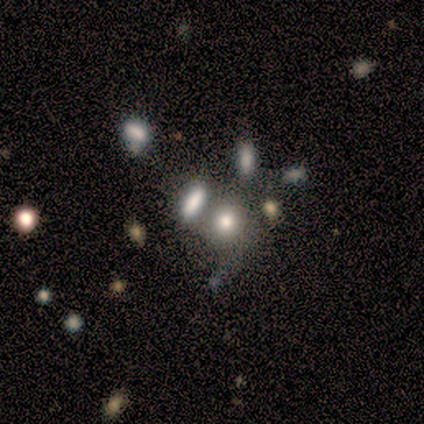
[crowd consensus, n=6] Overall: featured or disk (67%; star or artifact 33%). Edge-on disk: no (100%). Bar: no (100%). Spiral arms: no (100%). Bulge size: moderate (75%). Merging: none (50%, tied with merger).